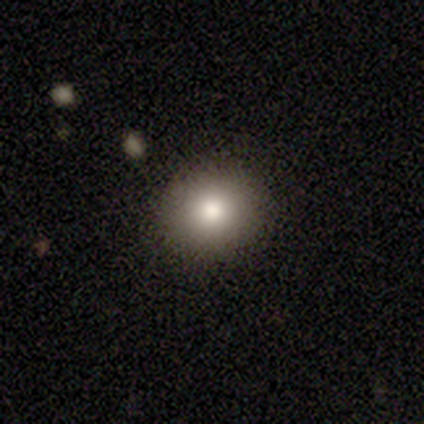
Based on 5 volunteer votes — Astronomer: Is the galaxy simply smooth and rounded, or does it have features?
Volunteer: smooth — 60%.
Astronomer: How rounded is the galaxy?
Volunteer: in between — 67%.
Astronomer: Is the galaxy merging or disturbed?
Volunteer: none — 75%.